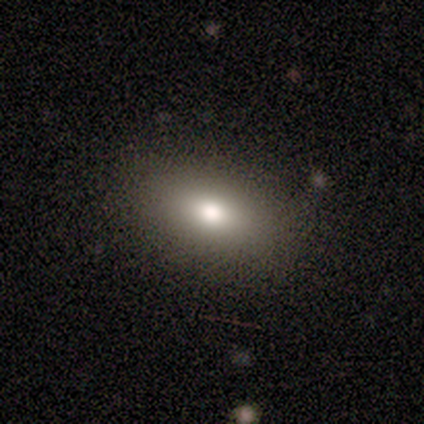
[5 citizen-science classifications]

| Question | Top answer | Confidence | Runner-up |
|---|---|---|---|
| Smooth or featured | smooth | 80% | star or artifact (20%) |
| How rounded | in between | 75% | cigar-shaped (25%) |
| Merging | none | 100% | — |